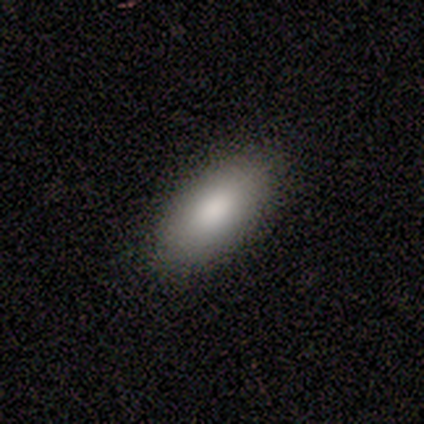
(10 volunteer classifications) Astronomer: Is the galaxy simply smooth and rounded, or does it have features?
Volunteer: smooth — 90%.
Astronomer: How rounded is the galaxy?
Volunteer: in between — 78%.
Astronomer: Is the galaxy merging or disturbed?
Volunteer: none — 90%.